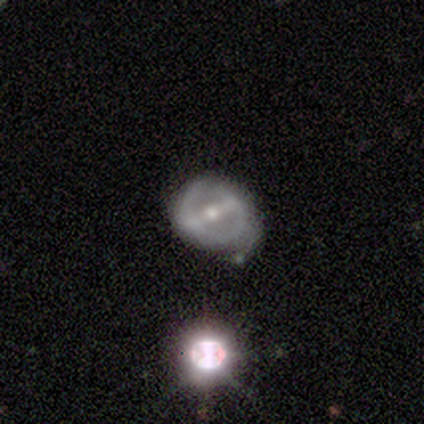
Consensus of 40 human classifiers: This appears to be a featured or disk galaxy (72%) with a strong bar (82%), 2 (80%) tight (40%, tied with medium) spiral arms (54%) and a small central bulge (61%). Merging: none (54%).